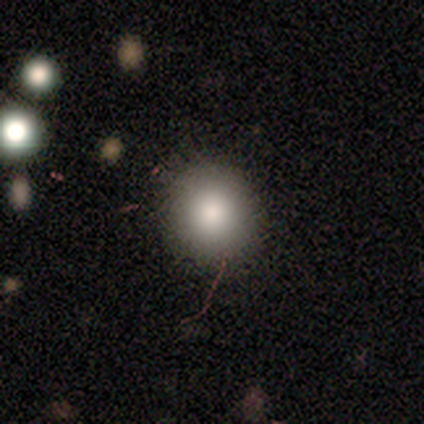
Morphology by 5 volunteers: smooth 80%, featured or disk 20%, star or artifact 0%. Down the decision tree: how rounded — round (100%); merging — none (80%).